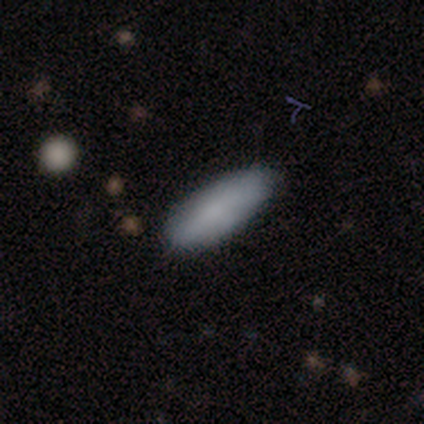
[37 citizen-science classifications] smooth-or-featured: smooth: 65% | featured or disk: 30% | star or artifact: 5%
  how-rounded: in between: 58% | cigar-shaped: 42% | round: 0%
  merging: none: 91% | minor disturbance: 9% | major disturbance: 0% | merger: 0%